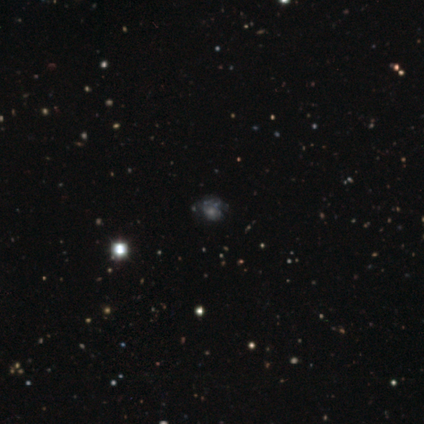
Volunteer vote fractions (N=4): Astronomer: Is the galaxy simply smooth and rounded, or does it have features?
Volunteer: featured or disk — 50%.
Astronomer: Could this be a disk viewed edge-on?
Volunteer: no — 100%.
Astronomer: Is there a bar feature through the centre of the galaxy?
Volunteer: no — 100%.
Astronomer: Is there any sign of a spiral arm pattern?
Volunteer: yes — 50%, tied with no at 50%.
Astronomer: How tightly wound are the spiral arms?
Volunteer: medium — 100%.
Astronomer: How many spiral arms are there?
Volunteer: can't tell — 100%.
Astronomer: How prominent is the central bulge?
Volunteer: moderate — 100%.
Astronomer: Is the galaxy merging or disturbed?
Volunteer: none — 67%.